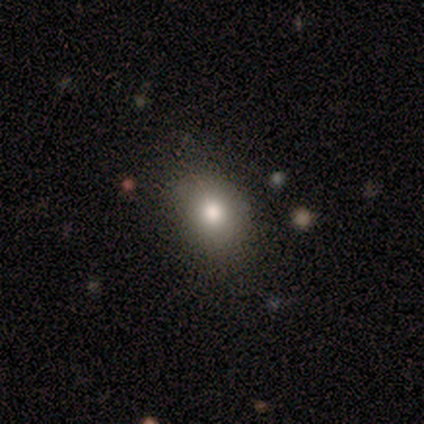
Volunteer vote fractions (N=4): Volunteers were most divided on "smooth or featured" (2-way tie): smooth: 50%, featured or disk: 50%, star or artifact: 0%; "how rounded" (2-way tie): round: 50%, in between: 50%, cigar-shaped: 0%. More confident: merging — none (75%).